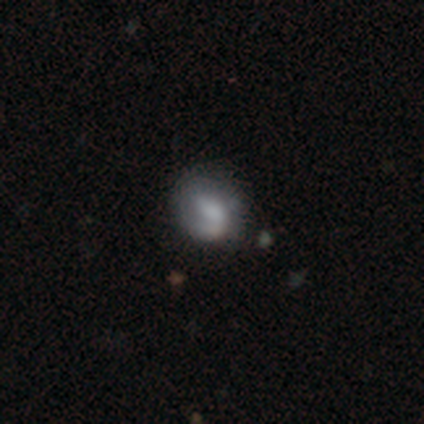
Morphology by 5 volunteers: smooth_or_featured: star or artifact (p=0.60) [alt: smooth p=0.40]